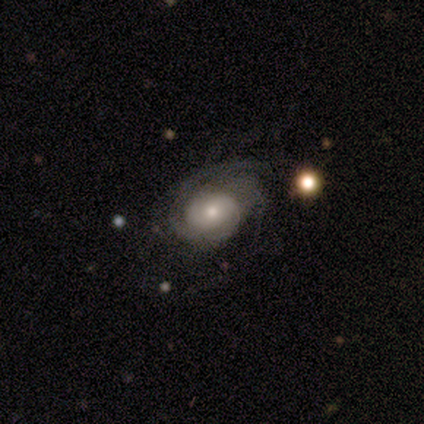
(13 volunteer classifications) A featured or disk galaxy (85%) with no bar (73%), 3 (40%) tight (50%) spiral arms (91%) and a moderate central bulge (45%, tied with small). Merging: none (69%).